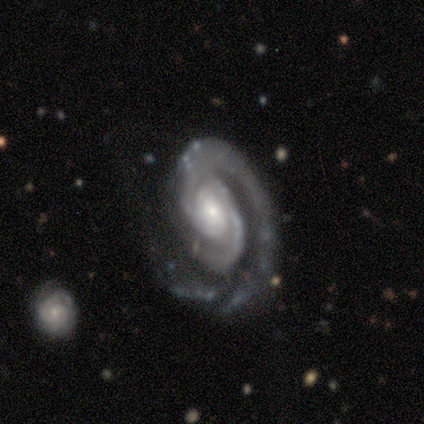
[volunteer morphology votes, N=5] smooth-or-featured: featured or disk: 100% | smooth: 0% | star or artifact: 0%
  disk-edge-on: no: 100% | yes: 0%
    bar: no: 100% | strong: 0% | weak: 0%
    has-spiral-arms: yes: 100% | no: 0%
      spiral-winding: tight: 100% | medium: 0% | loose: 0%
      spiral-arm-count: 2: 80% | 1: 20% | 3: 0% | 4: 0% | more than 4: 0% | can't tell: 0%
    bulge-size: small: 100% | dominant: 0% | large: 0% | moderate: 0% | none: 0%
  merging: none: 40% (tied) | major disturbance: 40% (tied) | merger: 20% | minor disturbance: 0%